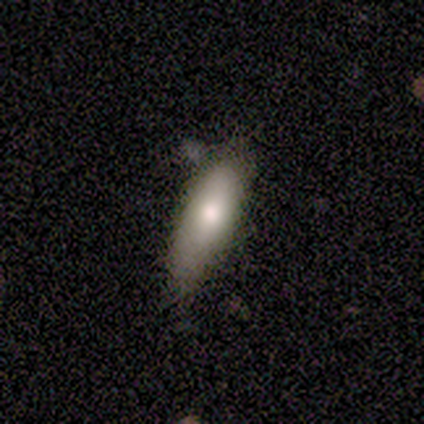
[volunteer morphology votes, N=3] Overall: smooth (67%; featured or disk 33%). How rounded: in between (50%, tied with cigar-shaped). Merging: none (33%, tied with minor disturbance and major disturbance).